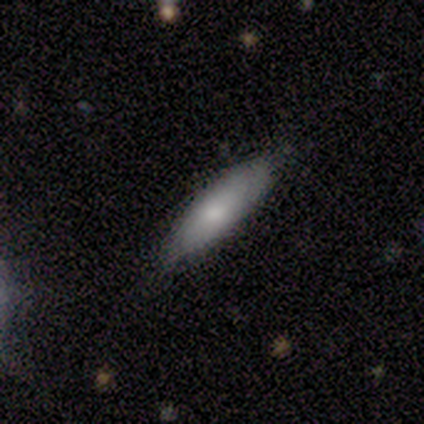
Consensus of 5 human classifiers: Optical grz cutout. It shows a featured or disk galaxy (60%) with no bar (100%), no spiral arms (67%) and a moderate central bulge (100%). Merging: none (60%).